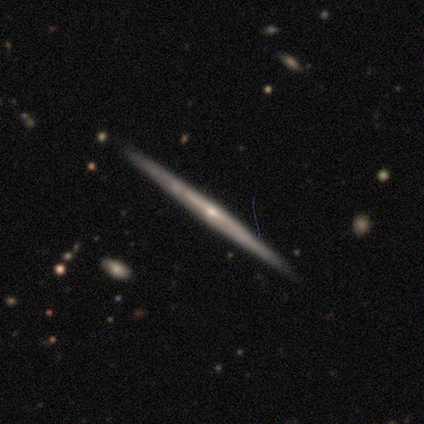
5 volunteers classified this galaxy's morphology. Smooth or featured? featured or disk (100%)
Edge-on disk? yes (100%)
Edge-on bulge? rounded (60%)
Merging? none (80%)